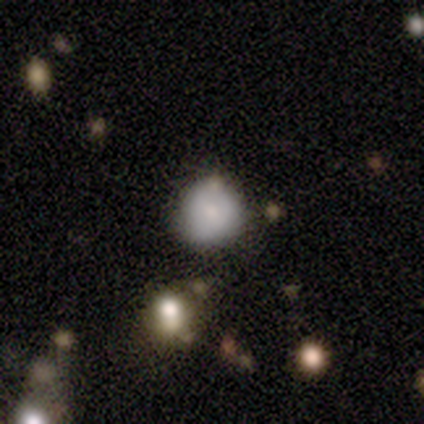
Smooth or featured: smooth — 100%
How rounded: round — 100%
Merging: none — 80% (minor disturbance — 20%)